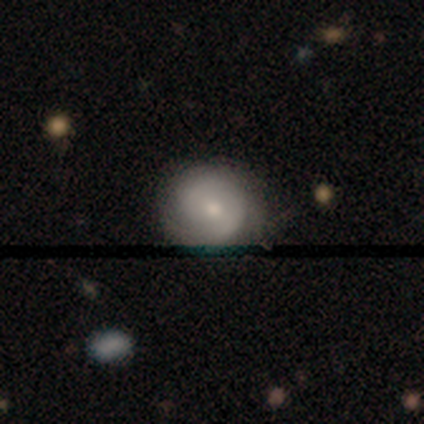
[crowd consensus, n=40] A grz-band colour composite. It shows a featured or disk galaxy (60%) with a weak bar (43%), 2 (56%) tight (72%) spiral arms (78%) and a moderate central bulge (48%, tied with small). Merging: none (62%).